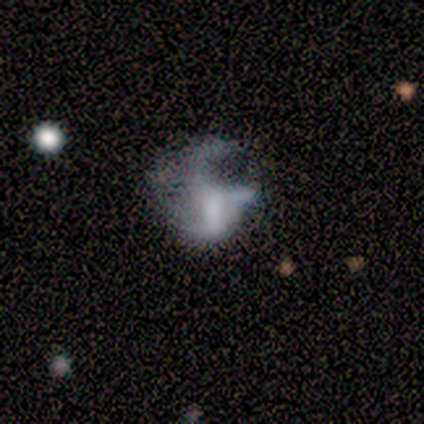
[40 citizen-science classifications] Smooth or featured? 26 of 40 (65%) said featured or disk. Edge-on disk? 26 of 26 (100%) said no. Bar? 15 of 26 (58%) said no. Spiral arms? 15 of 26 (58%) said no. Bulge size? 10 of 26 (38%) said none. Merging? 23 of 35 (66%) said major disturbance.